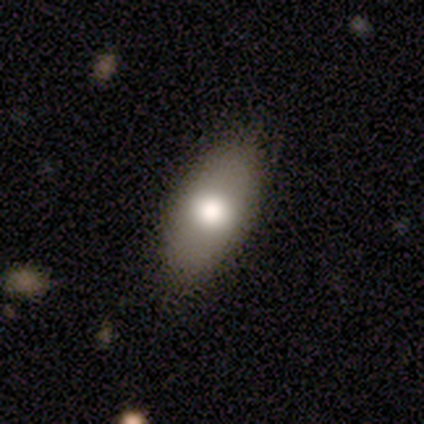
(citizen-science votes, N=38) Volunteers were most divided on "merging": none: 63%, major disturbance: 5%, minor disturbance: 0%, merger: 0%. More confident: how rounded — in between (94%); smooth or featured — smooth (87%).